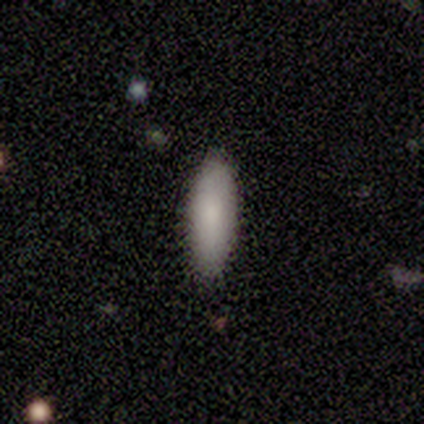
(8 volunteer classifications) This appears to be a smooth galaxy with no disk features (88%) that is in between round and cigar-shaped (71%). Merging: none (100%).